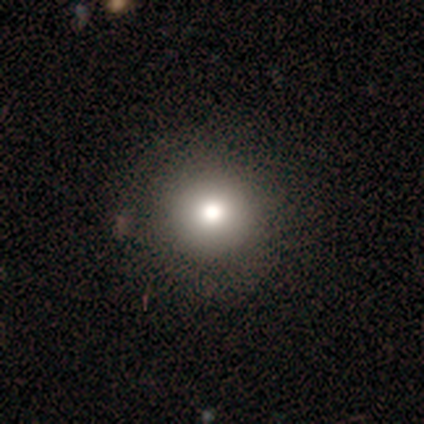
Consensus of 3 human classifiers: Smooth or featured? 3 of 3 (100%) said smooth. How rounded? 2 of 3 (67%) said round. Merging? 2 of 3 (67%) said none.